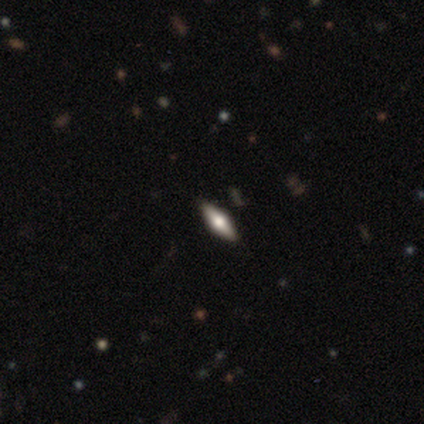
Morphology: type=featured or disk (60%); edge-on=yes (100%); edge-on bulge=rounded (100%); merging=none (75%).